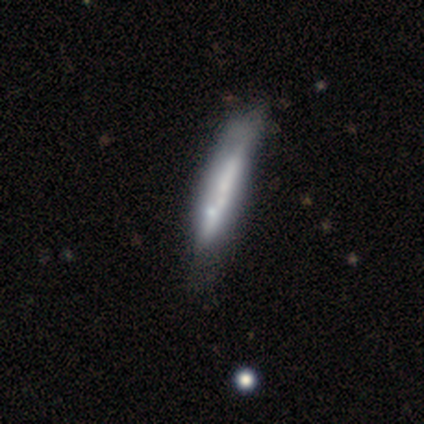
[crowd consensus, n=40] Smooth or featured? 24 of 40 (60%) said featured or disk. Edge-on disk? 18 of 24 (75%) said yes. Edge-on bulge? 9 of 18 (50%) said none. Merging? 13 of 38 (34%) said none.